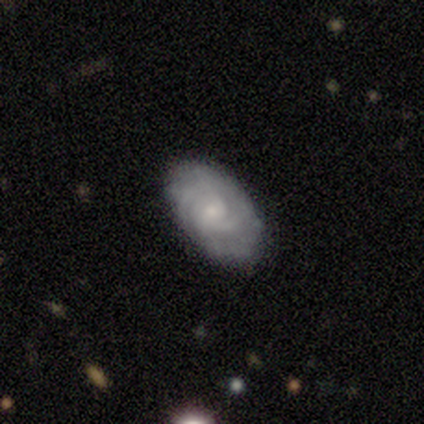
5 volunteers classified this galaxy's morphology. A featured or disk galaxy (80%) with no bar (100%), 2 (33%, tied with 3 and can't tell) tight (100%) spiral arms (100%) and a moderate central bulge (33%, tied with small and none). Merging: none (100%).